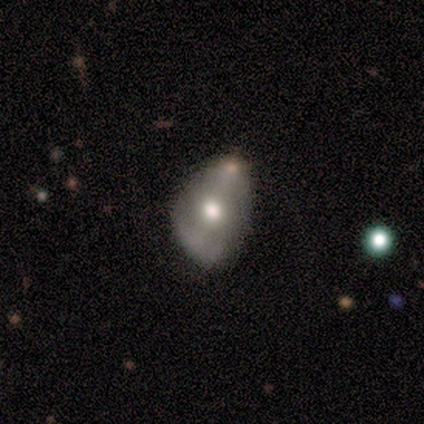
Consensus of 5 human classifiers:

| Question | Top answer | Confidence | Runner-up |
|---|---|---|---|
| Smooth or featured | featured or disk | 60% | smooth (40%) |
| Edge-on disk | no | 100% | — |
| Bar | no | 67% | weak (33%) |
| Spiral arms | yes | 67% | no (33%) |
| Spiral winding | medium | 100% | — |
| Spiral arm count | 2 | 100% | — |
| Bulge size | moderate | 100% | — |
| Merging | minor disturbance | 60% | none (40%) |